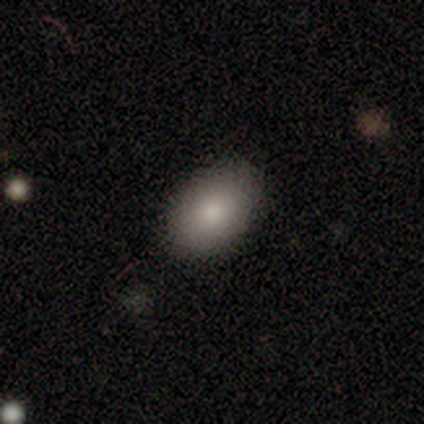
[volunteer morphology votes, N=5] smooth 100%, featured or disk 0%, star or artifact 0%. Down the decision tree: how rounded — in between (100%); merging — none (100%).